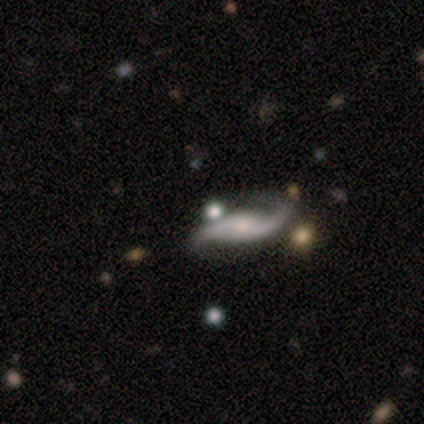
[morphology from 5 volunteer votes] This appears to be a featured or disk galaxy (80%) with no bar (75%), 2 (100%) loose (75%) spiral arms (100%) and a moderate central bulge (75%). Merging: none (100%).